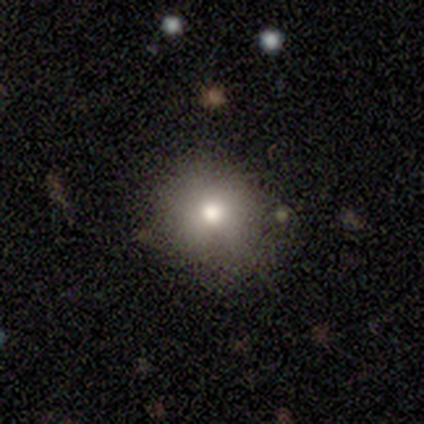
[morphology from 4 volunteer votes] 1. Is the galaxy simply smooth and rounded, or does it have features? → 75% smooth, 25% featured or disk, 0% star or artifact.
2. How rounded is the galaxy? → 100% round, 0% in between, 0% cigar-shaped.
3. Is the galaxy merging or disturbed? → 100% none, 0% minor disturbance, 0% major disturbance, 0% merger.